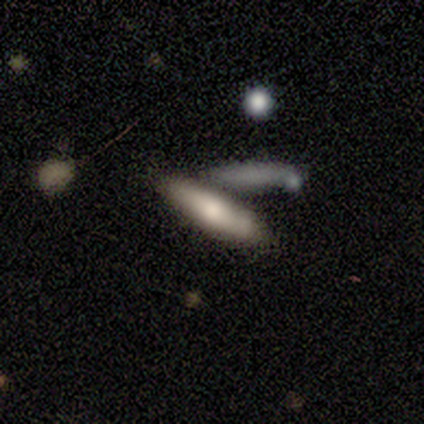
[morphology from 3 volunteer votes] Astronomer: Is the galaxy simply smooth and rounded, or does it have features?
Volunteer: featured or disk — 67%.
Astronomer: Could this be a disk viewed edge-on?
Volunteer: yes — 50%, tied with no at 50%.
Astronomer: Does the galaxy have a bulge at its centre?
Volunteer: rounded — 100%.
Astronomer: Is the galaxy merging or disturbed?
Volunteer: none — 100%.